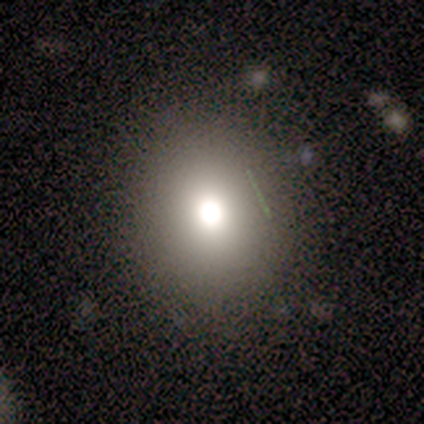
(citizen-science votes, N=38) Morphology: type=smooth (66%); roundness=round (76%); merging=none (97%).